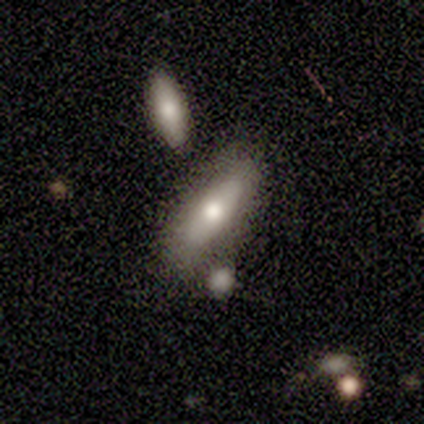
smooth-or-featured: smooth: 100% | featured or disk: 0% | star or artifact: 0%
  how-rounded: in between: 67% | cigar-shaped: 33% | round: 0%
  merging: none: 33% (tied) | minor disturbance: 33% (tied) | merger: 33% (tied) | major disturbance: 0%